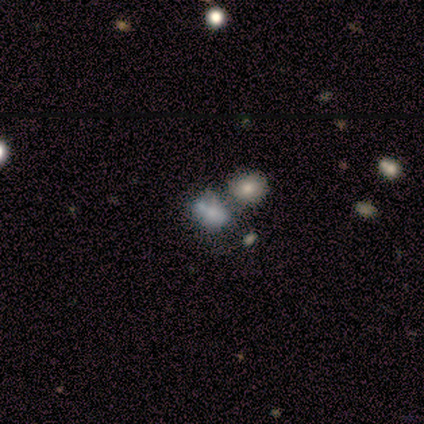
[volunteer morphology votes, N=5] Smooth or featured?
  - smooth: 60% *
  - featured or disk: 20%
  - star or artifact: 20%
How rounded?
  - in between: 100% *
  - round: 0%
  - cigar-shaped: 0%
Merging?
  - none: 75% *
  - major disturbance: 25%
  - minor disturbance: 0%
  - merger: 0%